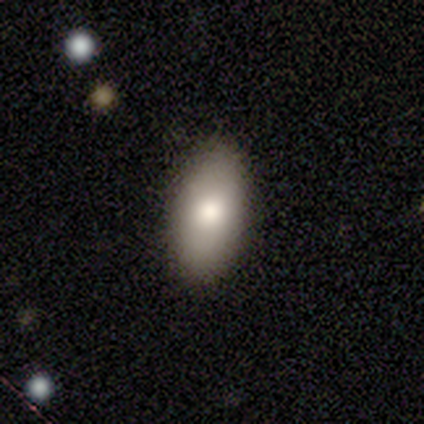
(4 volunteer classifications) Smooth or featured?
  - smooth: 75% *
  - featured or disk: 25%
  - star or artifact: 0%
How rounded?
  - in between: 67% *
  - cigar-shaped: 33%
  - round: 0%
Merging?
  - none: 100% *
  - minor disturbance: 0%
  - major disturbance: 0%
  - merger: 0%